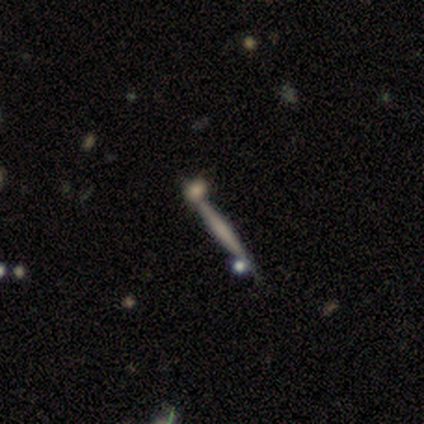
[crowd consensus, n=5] Q: Smooth or featured?
A: featured or disk (60%); runner-up: smooth (20%)
Q: Edge-on disk?
A: yes (100%)
Q: Edge-on bulge?
A: boxy (67%); runner-up: rounded (33%)
Q: Merging?
A: none (100%)